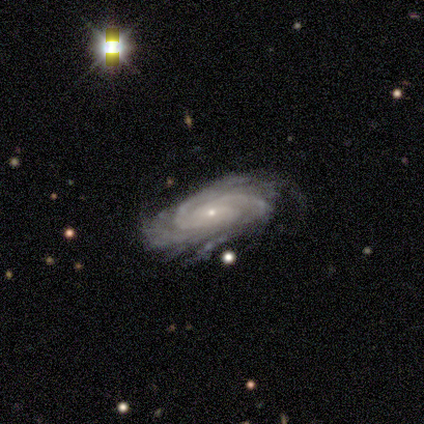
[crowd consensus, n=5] A featured or disk galaxy (100%) with no bar (75%), 3 (50%, tied with can't tell) medium (75%) spiral arms (100%) and a small central bulge (100%).

Vote fractions:
- Smooth or featured? featured or disk: 100% / smooth: 0% / star or artifact: 0%
- Edge-on disk? no: 80% / yes: 20%
- Bar? no: 75% / weak: 25% / strong: 0%
- Spiral arms? yes: 100% / no: 0%
- Spiral winding? medium: 75% / tight: 25% / loose: 0%
- Spiral arm count? 3: 50% (tied) / can't tell: 50% (tied) / 1: 0% / 2: 0% / 4: 0% / more than 4: 0%
- Bulge size? small: 100% / dominant: 0% / large: 0% / moderate: 0% / none: 0%
- Merging? none: 60% / minor disturbance: 20% / merger: 20% / major disturbance: 0%